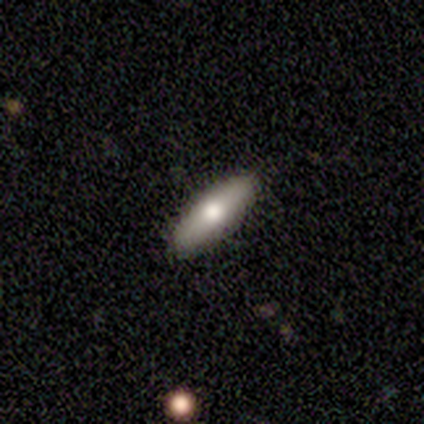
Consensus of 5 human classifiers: Smooth or featured? smooth (60%)
How rounded? cigar-shaped (100%)
Merging? none (100%)